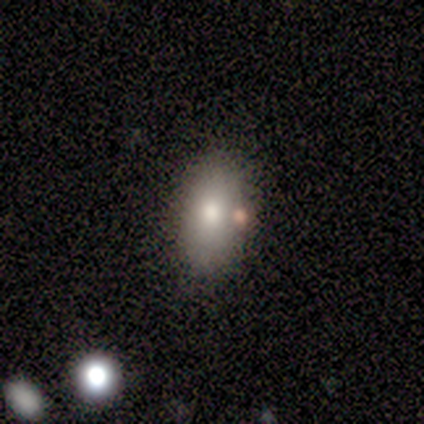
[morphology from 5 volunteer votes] Smooth or featured? 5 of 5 (100%) said smooth. How rounded? 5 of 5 (100%) said in between. Merging? 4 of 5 (80%) said none.